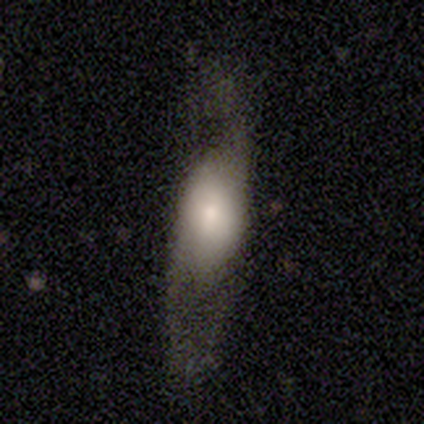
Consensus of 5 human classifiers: Smooth or featured? featured or disk (60%)
Edge-on disk? no (67%)
Bar? no (100%)
Spiral arms? yes (100%)
Spiral winding? medium (50%, tied with loose)
Spiral arm count? 2 (100%)
Bulge size? large (100%)
Merging? none (60%)